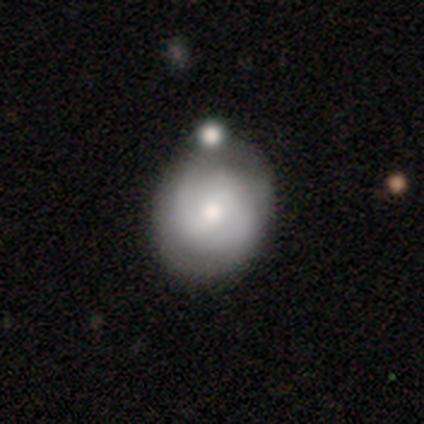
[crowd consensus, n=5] Morphology: type=smooth (60%); roundness=round (67%); merging=none (60%).